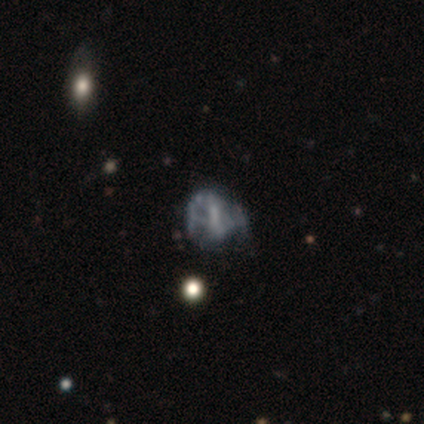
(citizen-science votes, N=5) Smooth or featured?
  - smooth: 40% * (tied)
  - featured or disk: 40% * (tied)
  - star or artifact: 20%
How rounded?
  - round: 100% *
  - in between: 0%
  - cigar-shaped: 0%
Merging?
  - minor disturbance: 50% * (tied)
  - major disturbance: 50% * (tied)
  - none: 0%
  - merger: 0%